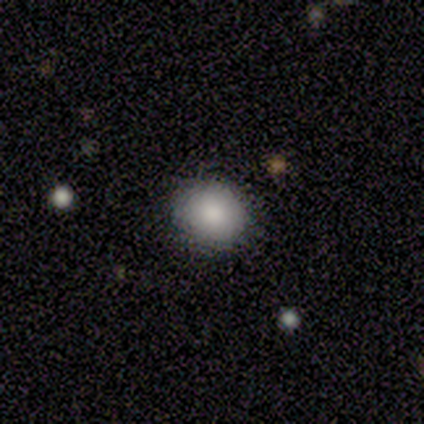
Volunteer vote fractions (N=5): A smooth galaxy with no disk features (100%) that is round (80%).

Vote fractions:
- Smooth or featured? smooth: 100% / featured or disk: 0% / star or artifact: 0%
- How rounded? round: 80% / in between: 20% / cigar-shaped: 0%
- Merging? none: 100% / minor disturbance: 0% / major disturbance: 0% / merger: 0%